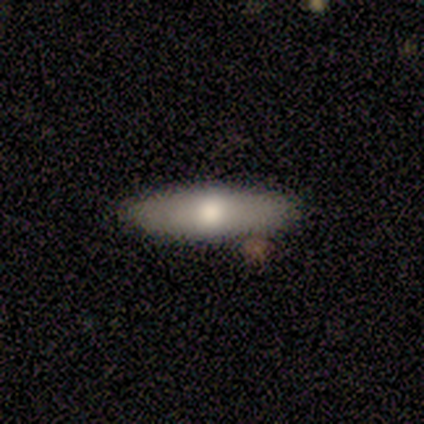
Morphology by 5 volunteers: A featured or disk galaxy (60%) with a weak bar (50%, tied with no), no spiral arms (100%) and a large central bulge (50%, tied with moderate).

Vote fractions:
- Smooth or featured? featured or disk: 60% / smooth: 40% / star or artifact: 0%
- Edge-on disk? no: 67% / yes: 33%
- Bar? weak: 50% (tied) / no: 50% (tied) / strong: 0%
- Spiral arms? no: 100% / yes: 0%
- Bulge size? large: 50% (tied) / moderate: 50% (tied) / dominant: 0% / small: 0% / none: 0%
- Merging? none: 100% / minor disturbance: 0% / major disturbance: 0% / merger: 0%